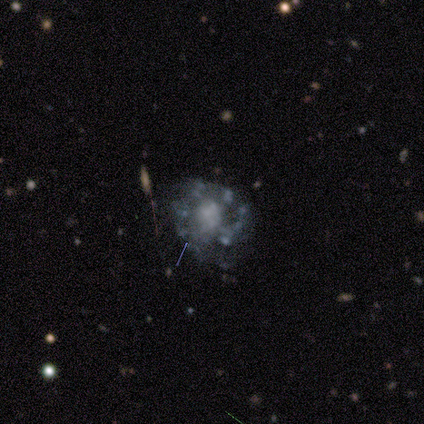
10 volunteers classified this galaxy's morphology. featured or disk 80%, star or artifact 20%, smooth 0%. Down the decision tree: edge-on disk — no (100%); bar — no (88%); spiral arms — yes (50%, tied with no); spiral arm count — 1 (50%, tied with can't tell); spiral winding — medium (50%); bulge size — small (38%); merging — none (62%).